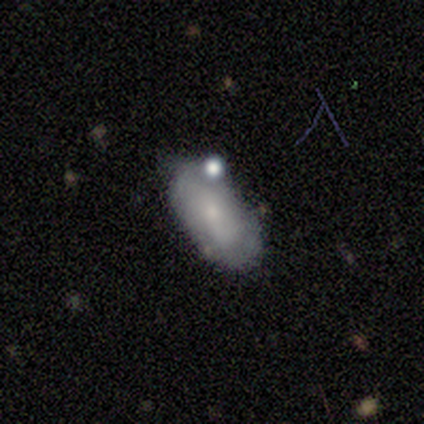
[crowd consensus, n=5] featured or disk 60%, smooth 40%, star or artifact 0%. Down the decision tree: edge-on disk — no (100%); bar — no (100%); spiral arms — yes (67%); spiral arm count — 1 (50%, tied with can't tell); spiral winding — medium (100%); bulge size — moderate (67%); merging — minor disturbance (60%).